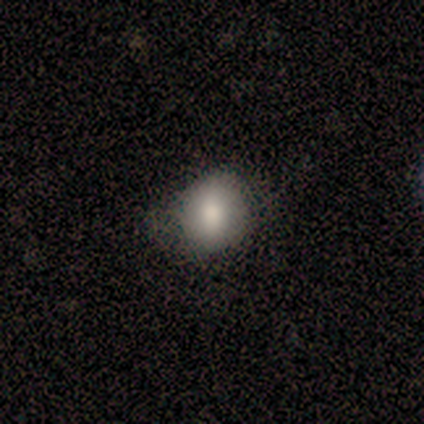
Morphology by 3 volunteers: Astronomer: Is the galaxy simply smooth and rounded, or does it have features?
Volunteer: smooth — 67%.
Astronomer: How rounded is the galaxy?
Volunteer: round — 50%, tied with in between at 50%.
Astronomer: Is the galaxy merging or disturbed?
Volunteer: minor disturbance — 100%.